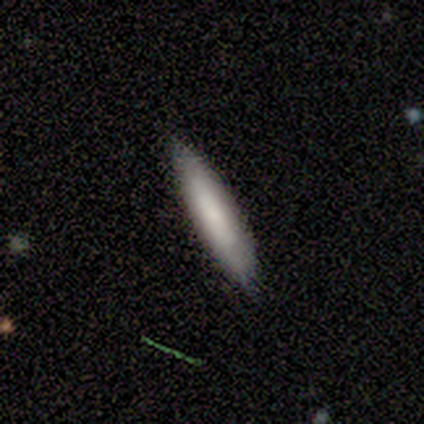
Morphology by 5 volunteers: This appears to be a smooth galaxy with no disk features (80%) that is cigar-shaped (100%). Merging: none (100%).